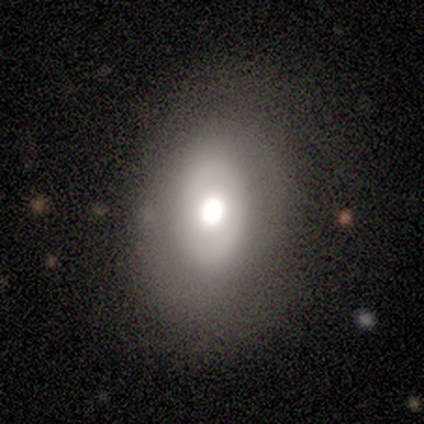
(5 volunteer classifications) smooth_or_featured: smooth (p=0.60) [alt: featured or disk p=0.40]
how_rounded: in between (p=1.00)
merging: none (p=0.80) [alt: minor disturbance p=0.20]